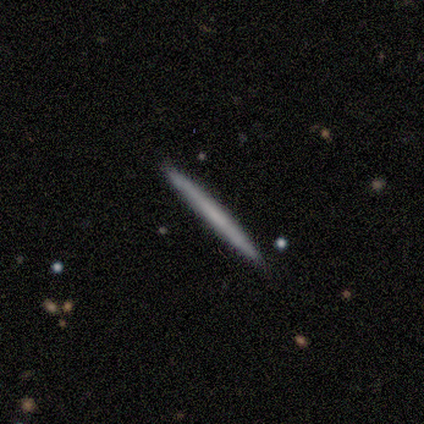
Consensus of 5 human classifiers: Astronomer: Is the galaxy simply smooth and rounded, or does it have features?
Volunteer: featured or disk — 80%.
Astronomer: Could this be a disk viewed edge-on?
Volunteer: yes — 100%.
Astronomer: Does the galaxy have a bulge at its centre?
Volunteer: none — 100%.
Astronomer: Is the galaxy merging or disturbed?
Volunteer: none — 80%.